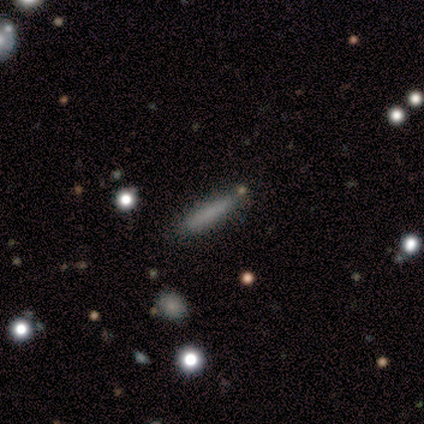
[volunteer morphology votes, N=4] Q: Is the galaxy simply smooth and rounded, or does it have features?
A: smooth — 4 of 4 (100%).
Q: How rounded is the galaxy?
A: cigar-shaped — 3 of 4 (75%).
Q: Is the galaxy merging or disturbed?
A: none — 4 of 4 (100%).